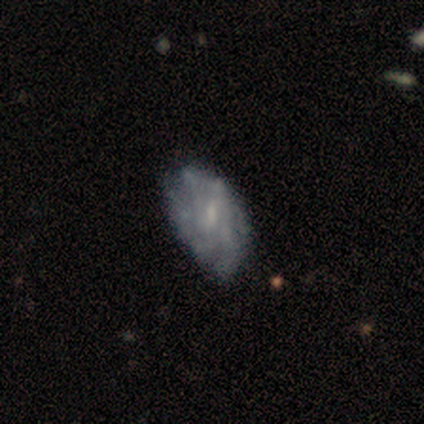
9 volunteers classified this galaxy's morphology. Volunteers were most divided on "merging": minor disturbance: 44%, major disturbance: 33%, none: 22%, merger: 0%. More confident: edge-on disk — no (100%); bulge size — small (83%); smooth or featured — featured or disk (67%); spiral arms — no (67%); bar — weak (67%).